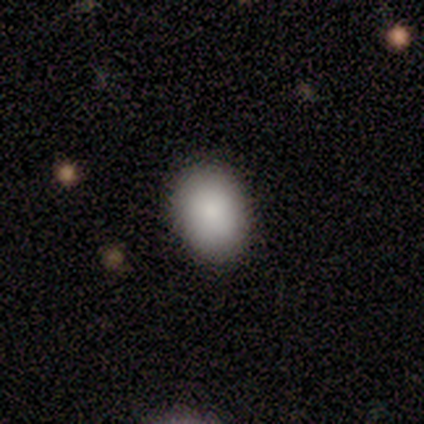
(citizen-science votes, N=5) Morphology: type=smooth (100%); roundness=in between (80%); merging=none (100%).